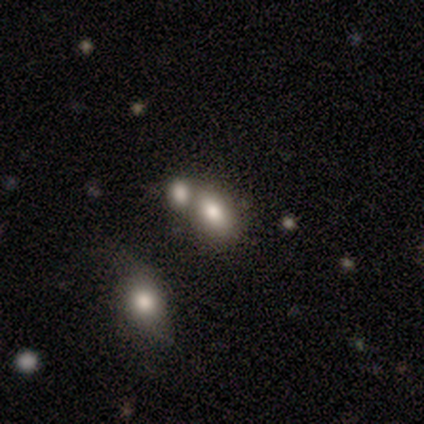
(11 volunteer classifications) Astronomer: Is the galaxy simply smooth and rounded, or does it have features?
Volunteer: smooth — 100%.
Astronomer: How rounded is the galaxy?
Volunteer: in between — 82%.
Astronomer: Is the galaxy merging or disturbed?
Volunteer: none — 36%, tied with merger at 36%.